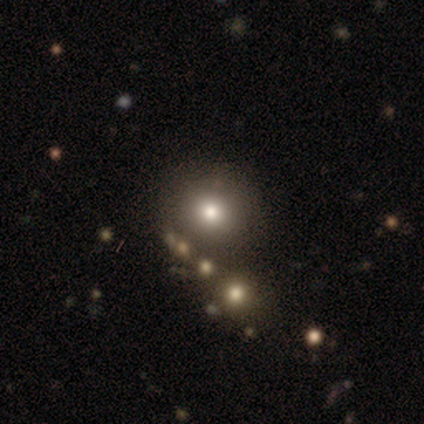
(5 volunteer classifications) smooth_or_featured: smooth (p=0.60) [alt: star or artifact p=0.40]
how_rounded: round (p=1.00)
merging: none (p=0.67) [alt: minor disturbance p=0.33]